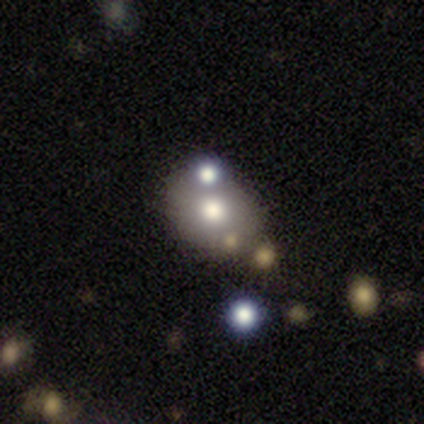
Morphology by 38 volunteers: This is possibly a smooth galaxy (53%). How rounded: clearly in between (85%). Merging: possibly none (54%).